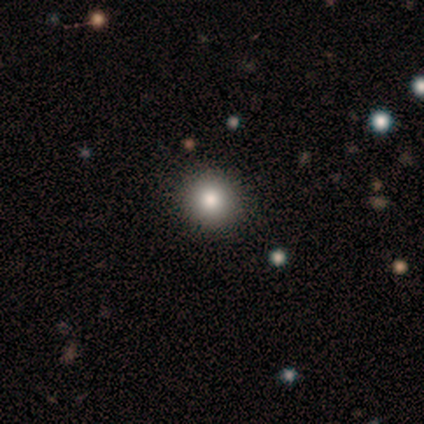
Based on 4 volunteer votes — Smooth or featured?
  - smooth: 75% *
  - featured or disk: 25%
  - star or artifact: 0%
How rounded?
  - round: 100% *
  - in between: 0%
  - cigar-shaped: 0%
Merging?
  - none: 100% *
  - minor disturbance: 0%
  - major disturbance: 0%
  - merger: 0%